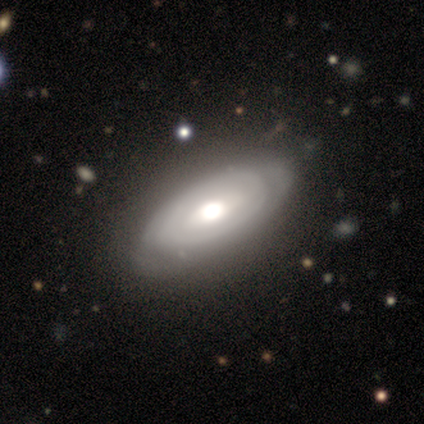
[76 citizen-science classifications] Q: Smooth or featured?
A: featured or disk (61%); runner-up: smooth (36%)
Q: Edge-on disk?
A: no (85%); runner-up: yes (15%)
Q: Bar?
A: no (67%); runner-up: weak (28%)
Q: Spiral arms?
A: yes (56%); runner-up: no (44%)
Q: Spiral winding?
A: tight (73%); runner-up: medium (18%)
Q: Spiral arm count?
A: can't tell (59%); runner-up: 2 (23%)
Q: Bulge size?
A: moderate (62%); runner-up: large (33%)
Q: Merging?
A: none (37%); runner-up: minor disturbance (7%)